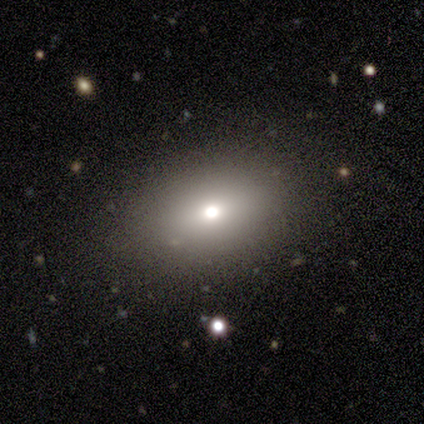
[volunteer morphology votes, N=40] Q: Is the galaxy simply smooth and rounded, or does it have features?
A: smooth — 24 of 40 (60%).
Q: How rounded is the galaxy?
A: in between — 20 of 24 (83%).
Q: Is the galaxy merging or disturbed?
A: none — 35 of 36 (97%).